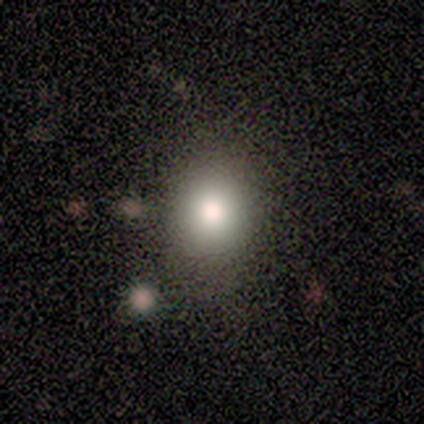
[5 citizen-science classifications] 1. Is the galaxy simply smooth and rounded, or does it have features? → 60% smooth, 20% featured or disk, 20% star or artifact.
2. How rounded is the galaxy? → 67% round, 33% in between, 0% cigar-shaped.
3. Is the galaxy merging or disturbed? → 75% none, 25% minor disturbance, 0% major disturbance, 0% merger.